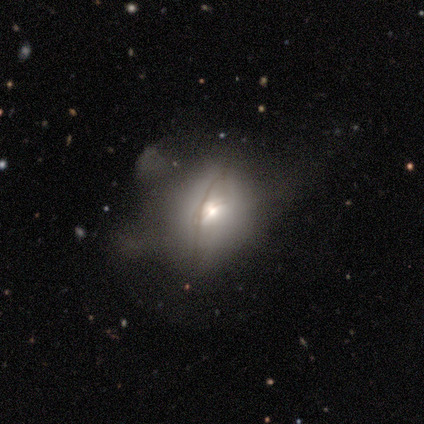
Volunteers were most divided on "bulge size" (2-way tie): moderate: 50%, none: 50%, dominant: 0%, large: 0%, small: 0%. More confident: bar — no (100%); spiral arms — no (100%); smooth or featured — featured or disk (75%); edge-on disk — no (67%); merging — major disturbance (50%).